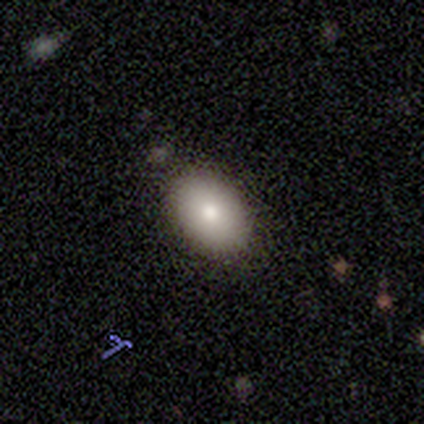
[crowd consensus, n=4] smooth 100%, featured or disk 0%, star or artifact 0%. Down the decision tree: how rounded — in between (100%); merging — none (100%).